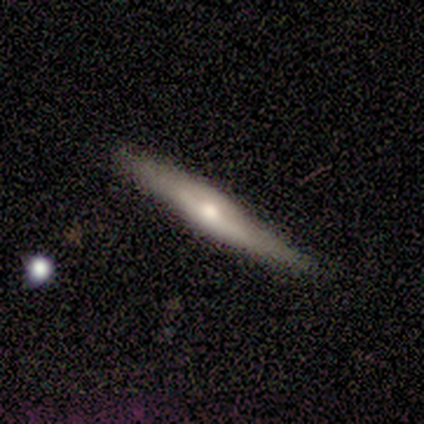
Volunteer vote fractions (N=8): Smooth or featured? featured or disk (62%)
Edge-on disk? yes (100%)
Edge-on bulge? rounded (80%)
Merging? none (86%)